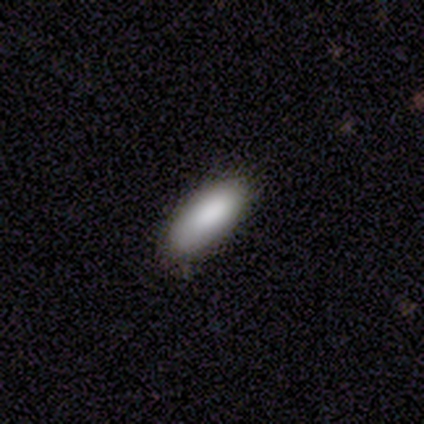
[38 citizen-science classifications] smooth_or_featured: smooth (p=0.89) [alt: featured or disk p=0.08]
how_rounded: in between (p=0.94) [alt: cigar-shaped p=0.06]
merging: none (p=0.76) [alt: minor disturbance p=0.19]